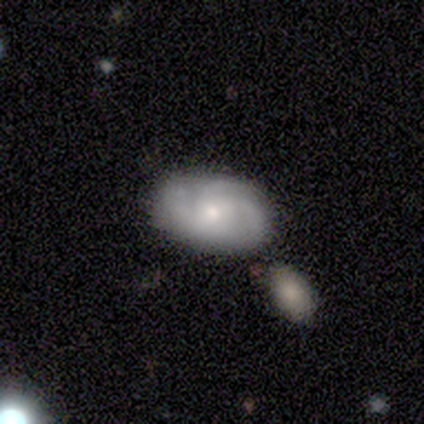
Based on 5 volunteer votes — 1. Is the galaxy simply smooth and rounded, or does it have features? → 60% featured or disk, 40% smooth, 0% star or artifact.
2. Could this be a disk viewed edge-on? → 100% no, 0% yes.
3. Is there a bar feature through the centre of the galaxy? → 67% no, 33% weak, 0% strong.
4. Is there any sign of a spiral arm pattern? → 100% yes, 0% no.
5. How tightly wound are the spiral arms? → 100% medium, 0% tight, 0% loose.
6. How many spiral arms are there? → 33% 3 (tied), 33% 4 (tied), 33% can't tell (tied), 0% 1, 0% 2, 0% more than 4.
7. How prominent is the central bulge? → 67% moderate, 33% small, 0% dominant, 0% large, 0% none.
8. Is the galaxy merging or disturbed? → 80% none, 20% merger, 0% minor disturbance, 0% major disturbance.